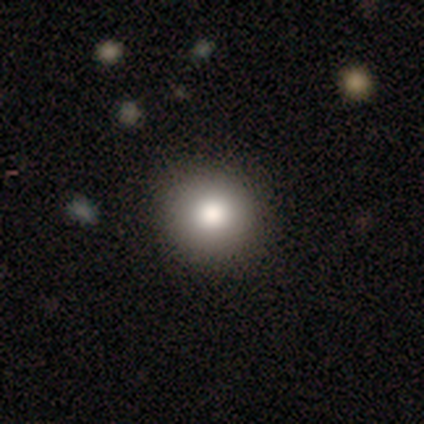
Morphology: type=smooth (60%); roundness=round (100%); merging=none (100%).